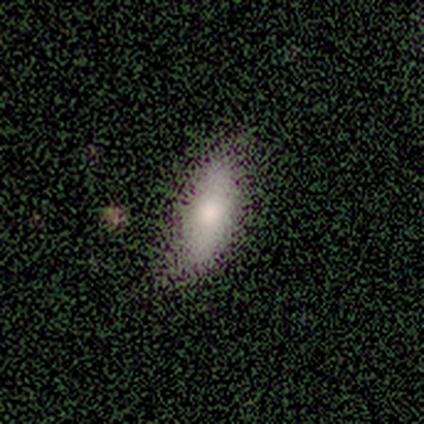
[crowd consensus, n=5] Smooth or featured? 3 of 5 (60%) said smooth. How rounded? 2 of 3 (67%) said in between. Merging? 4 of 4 (100%) said none.